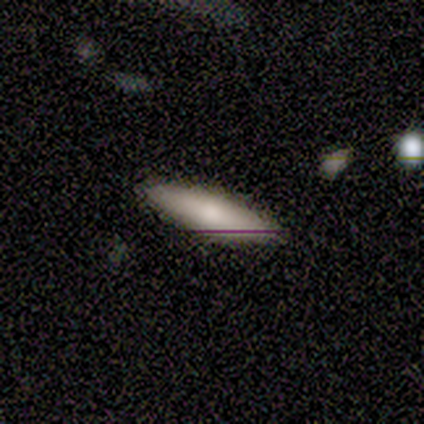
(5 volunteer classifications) smooth_or_featured: featured or disk (p=0.60) [alt: smooth p=0.40]
disk_edge_on: yes (p=0.67) [alt: no p=0.33]
edge_on_bulge: none (p=0.50) [tied with: rounded p=0.50]
merging: none (p=1.00)